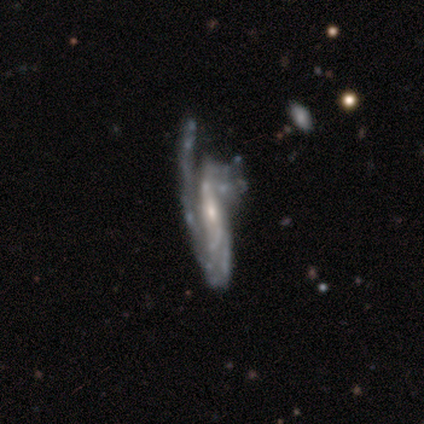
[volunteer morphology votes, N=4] Smooth or featured? featured or disk (100%)
Edge-on disk? no (75%)
Bar? no (67%)
Spiral arms? yes (100%)
Spiral winding? tight (33%, tied with medium and loose)
Spiral arm count? can't tell (67%)
Bulge size? small (67%)
Merging? minor disturbance (50%)